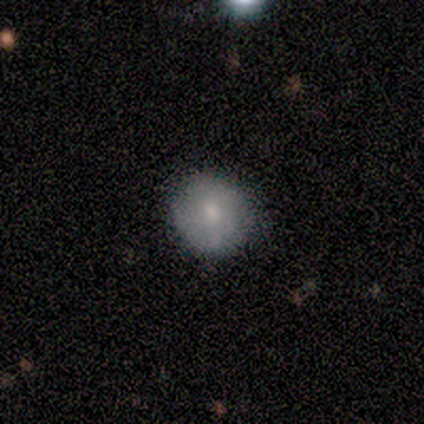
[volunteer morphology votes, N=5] smooth 100%, featured or disk 0%, star or artifact 0%. Down the decision tree: how rounded — round (100%); merging — none (100%).